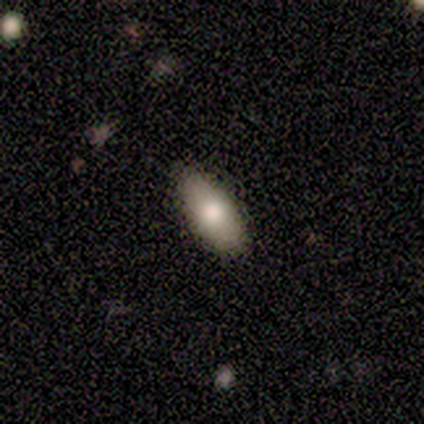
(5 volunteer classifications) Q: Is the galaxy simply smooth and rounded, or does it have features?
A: smooth — 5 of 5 (100%).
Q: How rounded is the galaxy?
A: in between — 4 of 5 (80%).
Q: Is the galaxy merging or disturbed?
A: none — 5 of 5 (100%).